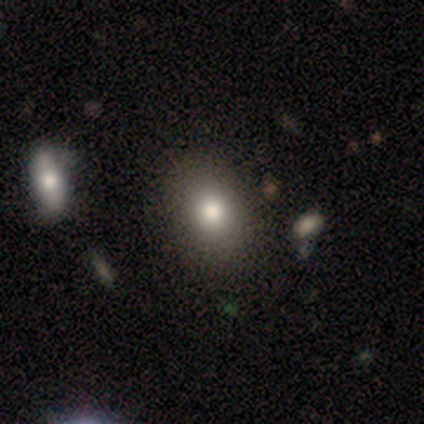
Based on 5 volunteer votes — Smooth or featured? 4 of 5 (80%) said smooth. How rounded? 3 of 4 (75%) said round. Merging? 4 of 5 (80%) said none.